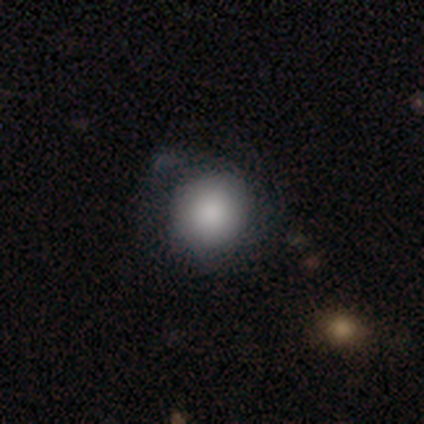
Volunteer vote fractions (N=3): A smooth galaxy with no disk features (67%) that is round (100%). Merging: none (50%, tied with minor disturbance).